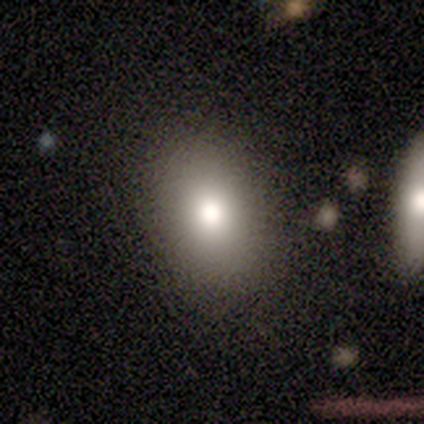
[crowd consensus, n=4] Volunteers were most divided on "merging" (2-way tie): none: 50%, minor disturbance: 50%, major disturbance: 0%, merger: 0%. More confident: smooth or featured — smooth (100%); how rounded — in between (75%).